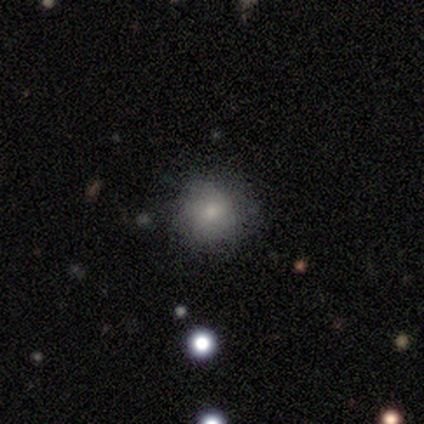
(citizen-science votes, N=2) Morphology: type=smooth (100%); roundness=round (100%); merging=none (50%, tied with minor disturbance).